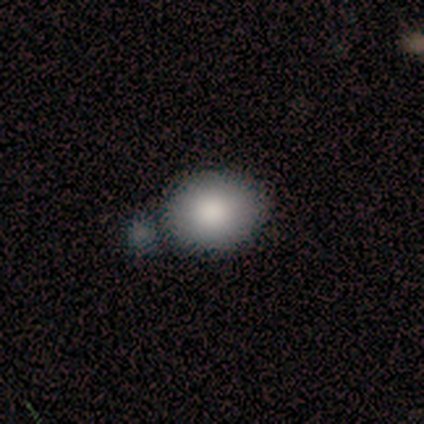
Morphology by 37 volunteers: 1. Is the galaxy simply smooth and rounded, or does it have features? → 86% smooth, 8% featured or disk, 5% star or artifact.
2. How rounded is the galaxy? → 62% in between, 38% round, 0% cigar-shaped.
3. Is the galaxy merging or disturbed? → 43% none, 34% merger, 23% minor disturbance, 0% major disturbance.